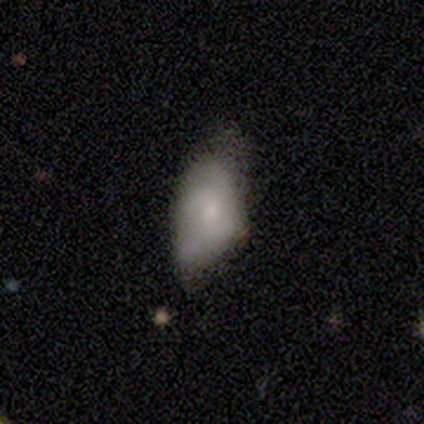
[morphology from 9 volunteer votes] This appears to be a smooth galaxy with no disk features (89%) that is in between round and cigar-shaped (100%). Merging: none (78%).